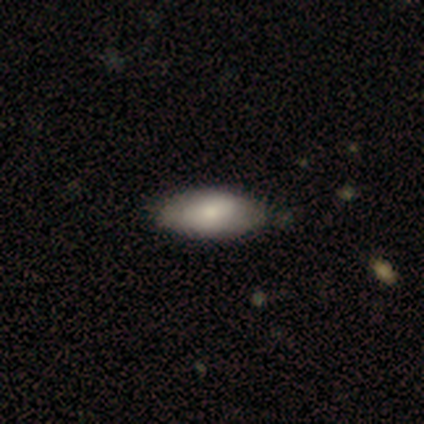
Smooth or featured?
  - smooth: 80% *
  - featured or disk: 20%
  - star or artifact: 0%
How rounded?
  - in between: 100% *
  - round: 0%
  - cigar-shaped: 0%
Merging?
  - none: 80% *
  - minor disturbance: 20%
  - major disturbance: 0%
  - merger: 0%